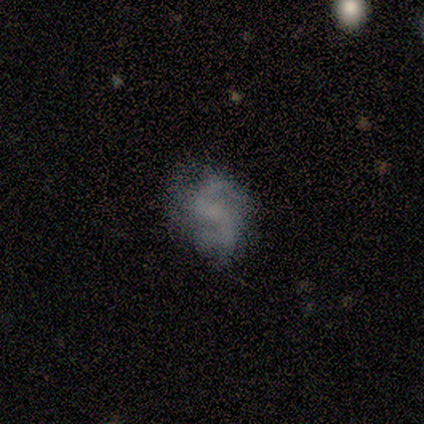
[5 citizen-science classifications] This is likely a featured or disk galaxy (60%). It is clearly not viewed edge-on (100%). Bar: likely weak (67%). Spiral arm pattern: likely yes (67%). Spiral arm count: possibly 2 (50%, tied with can't tell). Spiral winding: clearly loose (100%). Central bulge: clearly none (100%). Merging: likely none (75%).